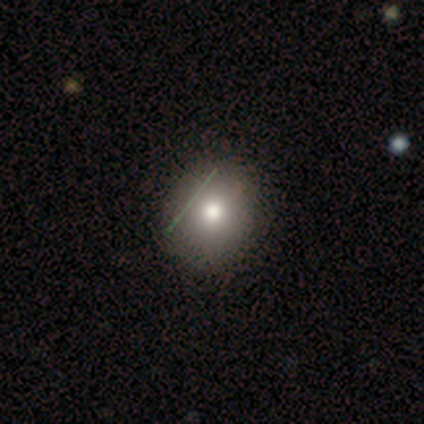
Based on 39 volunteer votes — A smooth galaxy with no disk features (74%) that is round (76%). Merging: none (56%).